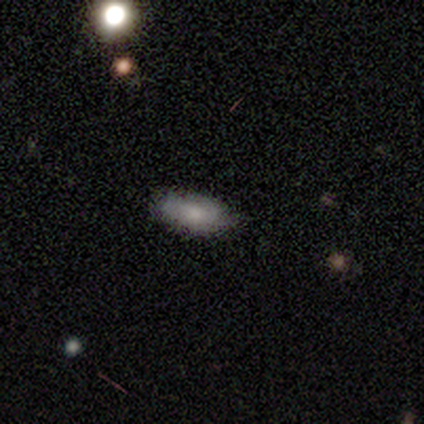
A smooth galaxy with no disk features (43%) that is in between round and cigar-shaped (100%).

Vote fractions:
- Smooth or featured? smooth: 43% / featured or disk: 29% / star or artifact: 29%
- How rounded? in between: 100% / round: 0% / cigar-shaped: 0%
- Merging? none: 100% / minor disturbance: 0% / major disturbance: 0% / merger: 0%